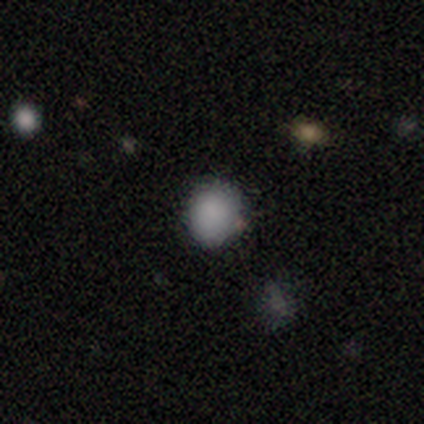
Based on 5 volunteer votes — Q: Smooth or featured?
A: smooth (100%)
Q: How rounded?
A: round (60%); runner-up: in between (20%)
Q: Merging?
A: none (80%); runner-up: minor disturbance (20%)